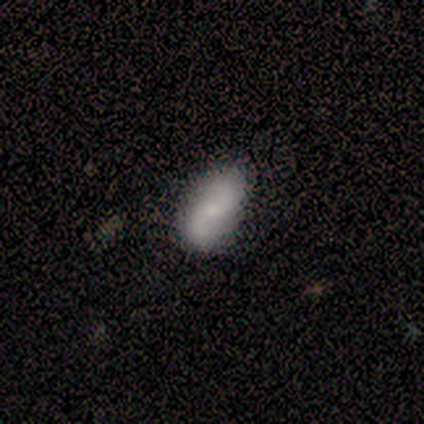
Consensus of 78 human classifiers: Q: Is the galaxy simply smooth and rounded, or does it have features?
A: featured or disk — 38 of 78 (49%).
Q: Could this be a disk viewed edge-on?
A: no — 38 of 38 (100%).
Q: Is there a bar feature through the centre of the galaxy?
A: no — 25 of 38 (66%).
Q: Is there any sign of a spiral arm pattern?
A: yes — 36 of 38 (95%).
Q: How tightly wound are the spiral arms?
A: loose — 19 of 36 (53%).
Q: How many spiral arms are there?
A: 2 — 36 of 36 (100%).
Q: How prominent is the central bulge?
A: small — 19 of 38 (50%).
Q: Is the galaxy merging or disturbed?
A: none — 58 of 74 (78%).